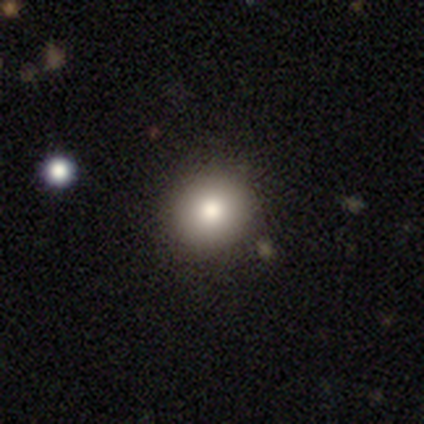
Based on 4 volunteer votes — Morphology: type=smooth (100%); roundness=round (100%); merging=none (100%).